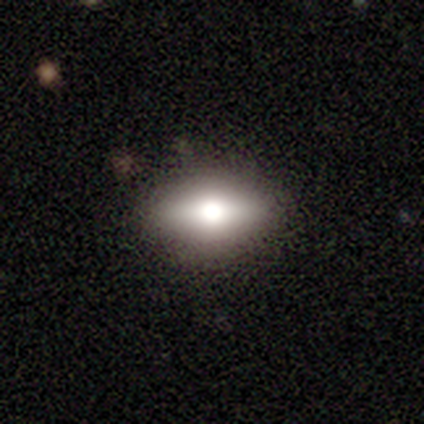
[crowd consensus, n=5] Smooth or featured: featured or disk — 40% (tied with star or artifact — 40%)
Edge-on disk: yes — 50% (tied with no — 50%)
Edge-on bulge: rounded — 100%
Merging: none — 100%